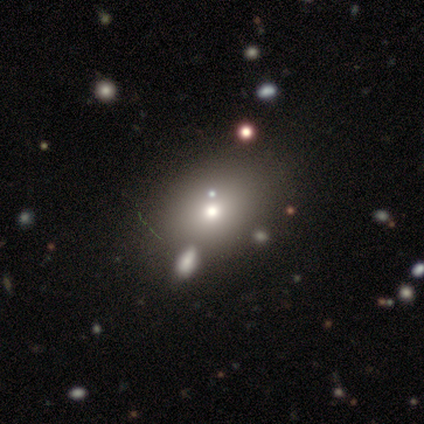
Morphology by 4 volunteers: smooth 50% (tied), featured or disk 50% (tied), star or artifact 0%. Down the decision tree: how rounded — in between (100%); merging — none (75%).